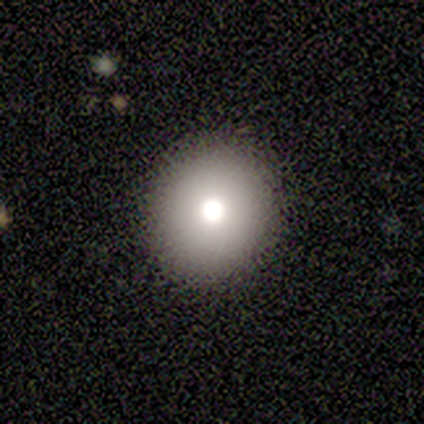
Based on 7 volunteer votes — Smooth or featured?
  - smooth: 71% *
  - star or artifact: 29%
  - featured or disk: 0%
How rounded?
  - round: 80% *
  - in between: 20%
  - cigar-shaped: 0%
Merging?
  - none: 100% *
  - minor disturbance: 0%
  - major disturbance: 0%
  - merger: 0%